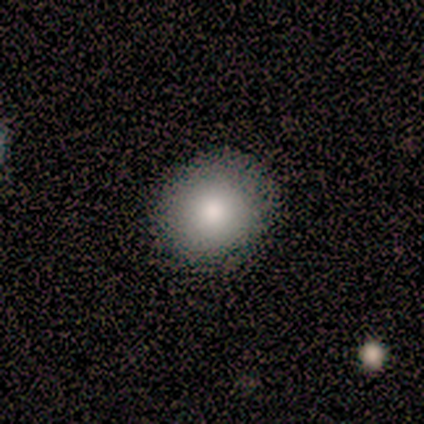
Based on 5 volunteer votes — smooth_or_featured: smooth (p=0.60) [alt: featured or disk p=0.20]
how_rounded: round (p=1.00)
merging: none (p=1.00)